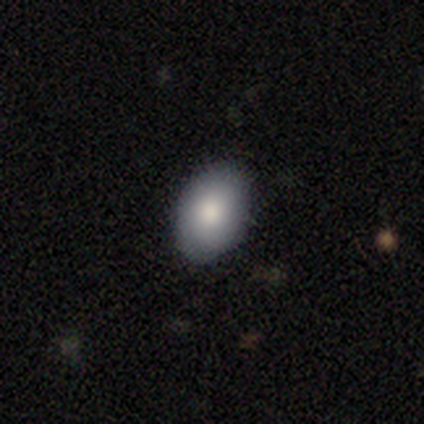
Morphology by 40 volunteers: This is clearly a smooth galaxy (82%). How rounded: clearly in between (88%). Merging: clearly none (89%).